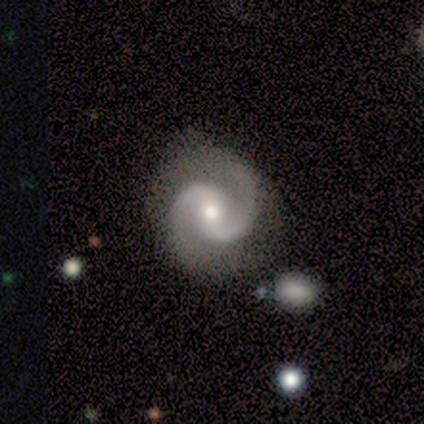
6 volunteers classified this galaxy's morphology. This is clearly a featured or disk galaxy (100%). It is clearly not viewed edge-on (100%). Bar: likely weak (67%). Spiral arm pattern: clearly yes (100%). Spiral arm count: clearly 2 (100%). Spiral winding: clearly medium (100%). Central bulge: clearly moderate (100%). Merging: possibly none (50%).